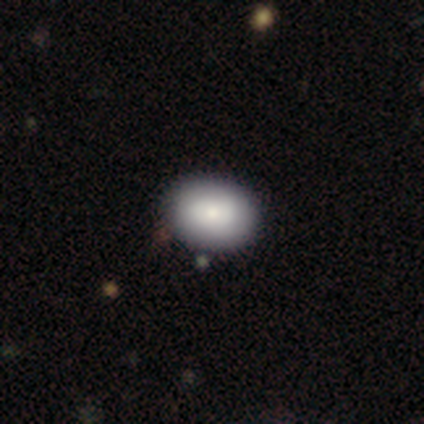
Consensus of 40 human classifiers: Q: Smooth or featured?
A: smooth (90%); runner-up: featured or disk (8%)
Q: How rounded?
A: in between (61%); runner-up: round (39%)
Q: Merging?
A: none (56%); runner-up: minor disturbance (8%)